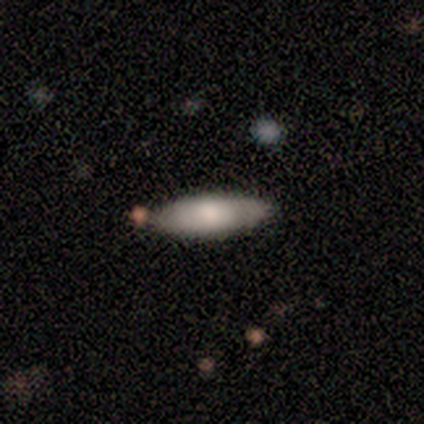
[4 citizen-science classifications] Smooth or featured? smooth (100%)
How rounded? cigar-shaped (75%)
Merging? none (75%)